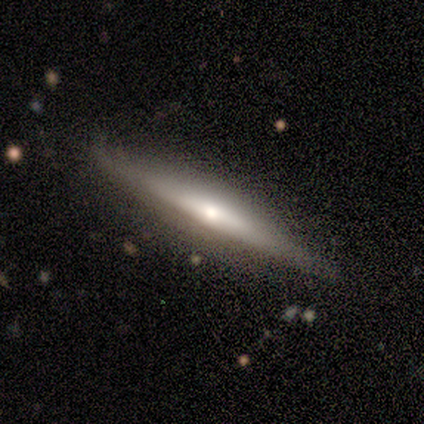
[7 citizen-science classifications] This appears to be a featured or disk galaxy (86%) viewed edge-on (83%) with no central bulge (60%). Merging: none (100%).